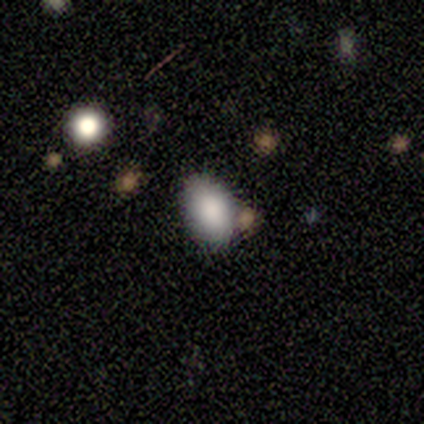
Morphology: type=smooth (100%); roundness=in between (100%); merging=none (40%, tied with merger).